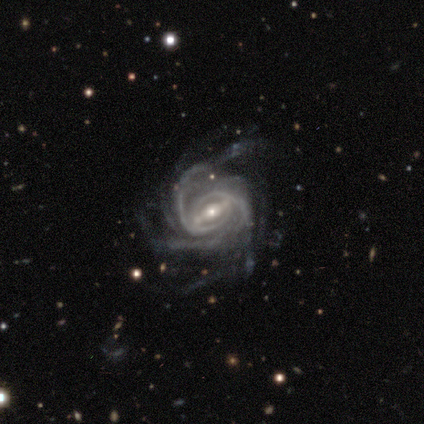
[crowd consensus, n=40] This appears to be a featured or disk galaxy (95%) with a strong bar (76%), 2 (30%) tight (59%) spiral arms (100%) and a small central bulge (54%). Merging: none (45%).